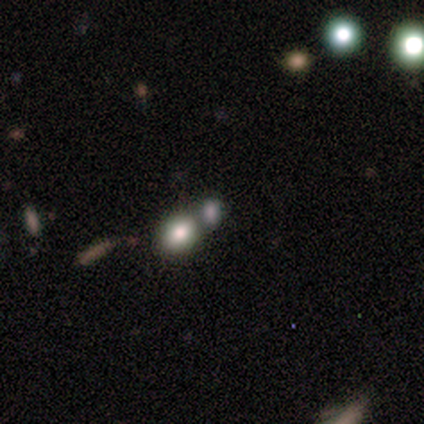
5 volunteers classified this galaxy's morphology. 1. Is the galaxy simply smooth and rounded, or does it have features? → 80% smooth, 20% star or artifact, 0% featured or disk.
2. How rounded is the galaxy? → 50% round (tied), 50% in between (tied), 0% cigar-shaped.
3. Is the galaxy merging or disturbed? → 75% none, 25% merger, 0% minor disturbance, 0% major disturbance.